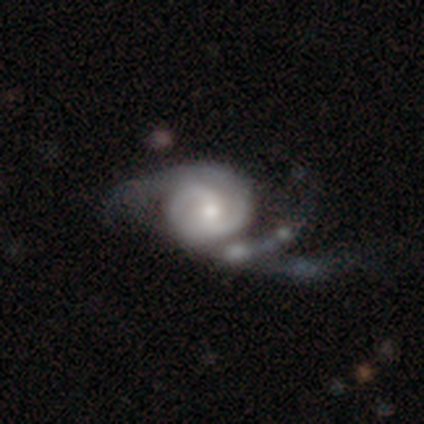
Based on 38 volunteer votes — featured or disk 95%, smooth 5%, star or artifact 0%. Down the decision tree: edge-on disk — no (100%); bar — no (56%); spiral arms — yes (97%); spiral arm count — 2 (57%); spiral winding — medium (46%); bulge size — moderate (72%); merging — major disturbance (39%).